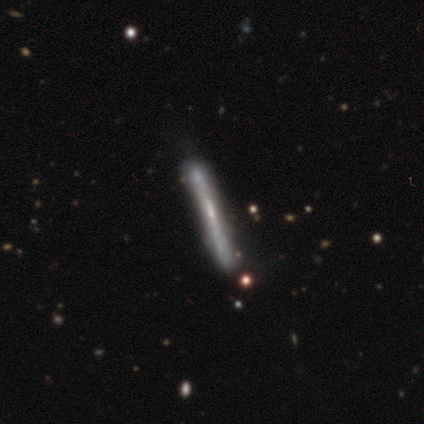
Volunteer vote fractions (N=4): smooth 50% (tied), featured or disk 50% (tied), star or artifact 0%. Down the decision tree: how rounded — cigar-shaped (100%); merging — none (75%).